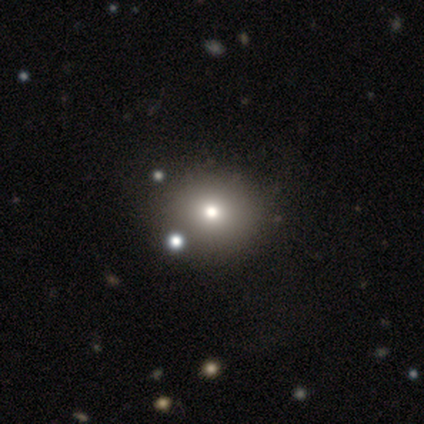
Overall: smooth (80%). How rounded: round (100%). Merging: none (50%; minor disturbance 25%).